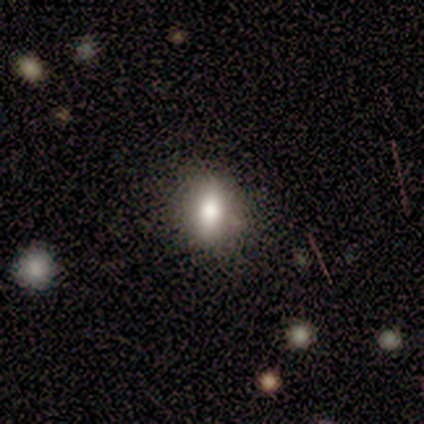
Smooth or featured?
  - smooth: 67% *
  - featured or disk: 22%
  - star or artifact: 11%
How rounded?
  - in between: 67% *
  - round: 17%
  - cigar-shaped: 17%
Merging?
  - none: 75% *
  - minor disturbance: 25%
  - major disturbance: 0%
  - merger: 0%